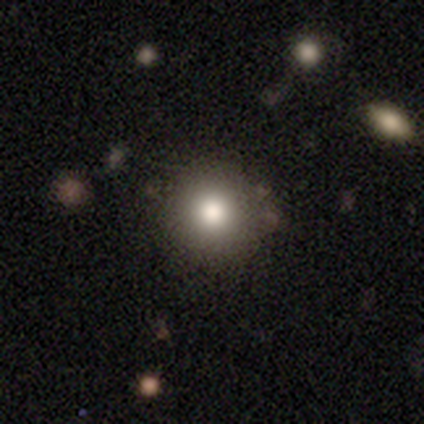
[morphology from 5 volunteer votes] type=smooth (80%); roundness=round (100%); merging=none (80%).